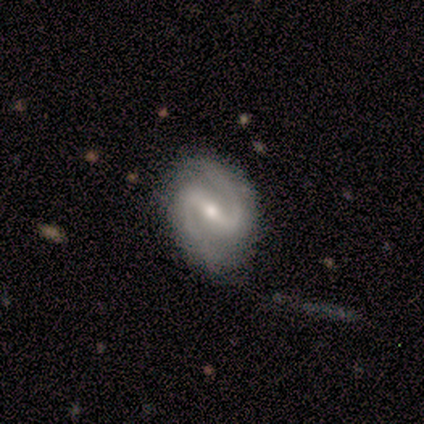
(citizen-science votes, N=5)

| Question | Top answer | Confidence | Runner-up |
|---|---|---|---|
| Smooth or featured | featured or disk | 100% | — |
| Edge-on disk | no | 80% | yes (20%) |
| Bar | strong | 50% | tied: weak (50%) |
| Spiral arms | yes | 100% | — |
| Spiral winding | loose | 50% | tight (25%) |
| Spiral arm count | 2 | 100% | — |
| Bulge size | moderate | 50% | tied: small (50%) |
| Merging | none | 80% | minor disturbance (20%) |